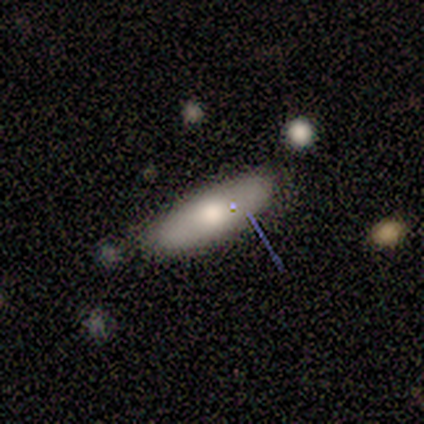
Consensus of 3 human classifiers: Q: Smooth or featured?
A: smooth (67%); runner-up: star or artifact (33%)
Q: How rounded?
A: in between (50%); tied with: cigar-shaped (50%)
Q: Merging?
A: none (100%)